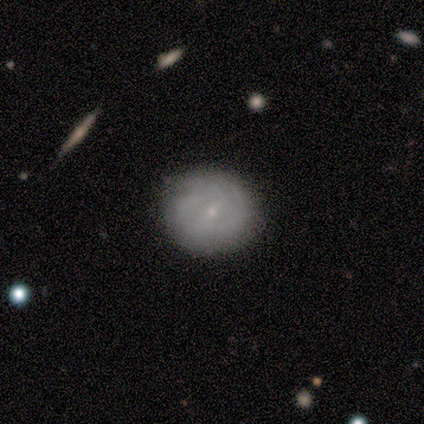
smooth 80%, featured or disk 20%, star or artifact 0%. Down the decision tree: how rounded — round (100%); merging — none (80%).